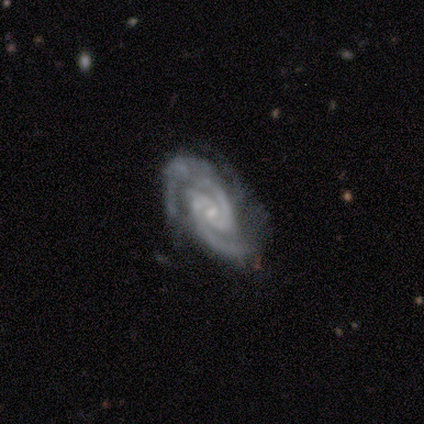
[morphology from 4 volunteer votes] Smooth or featured? featured or disk (100%)
Edge-on disk? no (100%)
Bar? weak (75%)
Spiral arms? yes (100%)
Spiral winding? tight (75%)
Spiral arm count? 2 (75%)
Bulge size? small (50%)
Merging? none (100%)